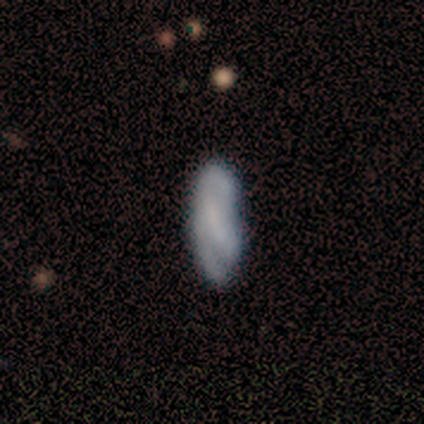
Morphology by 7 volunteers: This is marginally a smooth galaxy (43%, tied with featured or disk). How rounded: likely in between (67%). Merging: possibly none (50%).